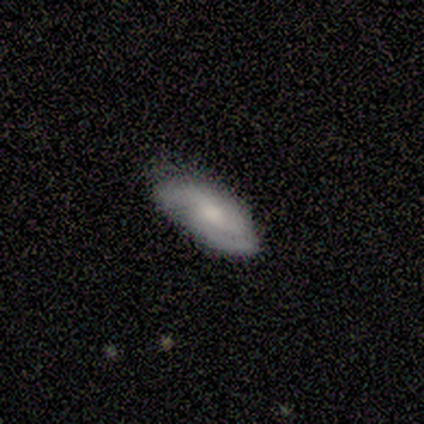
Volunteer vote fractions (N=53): This appears to be a featured or disk galaxy (55%) with no bar (61%), 2 (64%) tight (44%, tied with medium) spiral arms (89%) and a moderate central bulge (57%). Merging: none (70%).